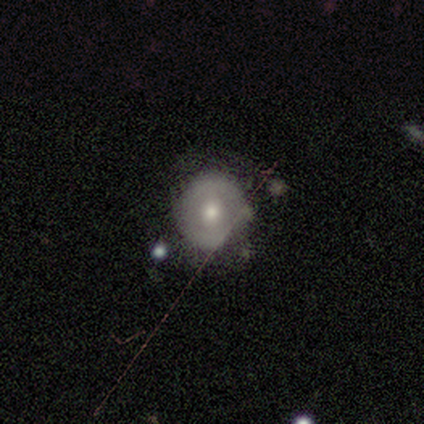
Overall: featured or disk (57%; smooth 43%). Edge-on disk: no (100%). Bar: no (100%). Spiral arms: yes (75%). Spiral arm count: 2 (67%; can't tell 33%). Spiral winding: tight (100%). Bulge size: moderate (75%). Merging: none (71%).